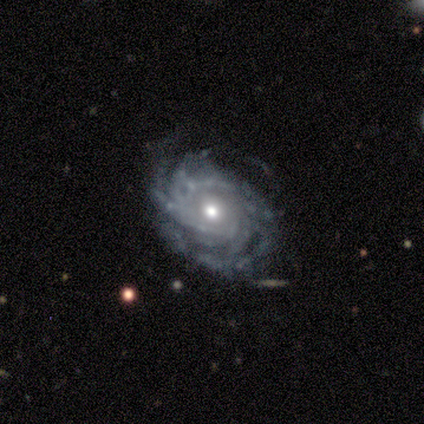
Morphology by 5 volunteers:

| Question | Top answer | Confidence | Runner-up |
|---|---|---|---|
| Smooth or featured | featured or disk | 100% | — |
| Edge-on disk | no | 80% | yes (20%) |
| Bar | strong | 50% | tied: no (50%) |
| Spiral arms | yes | 100% | — |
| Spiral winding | tight | 50% | tied: medium (50%) |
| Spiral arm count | can't tell | 50% | 2 (25%) |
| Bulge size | moderate | 50% | dominant (25%) |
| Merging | minor disturbance | 60% | none (20%) |